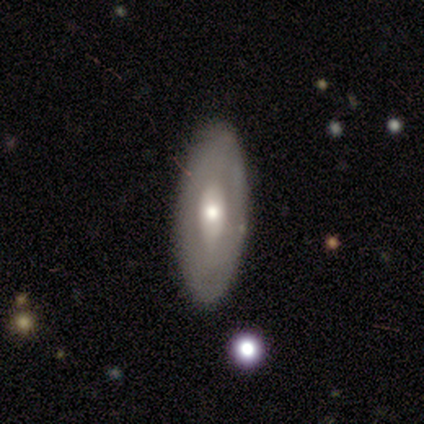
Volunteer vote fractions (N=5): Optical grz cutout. It shows a featured or disk galaxy (80%) with no bar (75%), no spiral arms (100%) and a moderate central bulge (50%). Merging: none (100%).